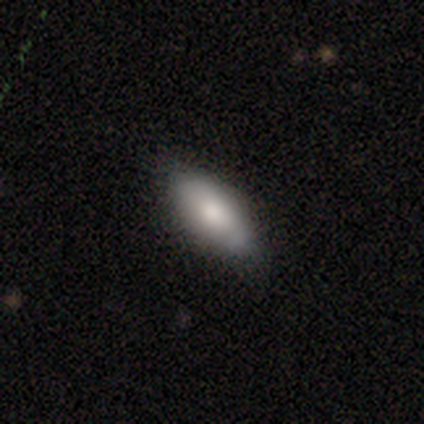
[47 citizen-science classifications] smooth_or_featured: smooth (p=0.79) [alt: featured or disk p=0.19]
how_rounded: in between (p=0.78) [alt: cigar-shaped p=0.19]
merging: none (p=0.67) [alt: minor disturbance p=0.28]